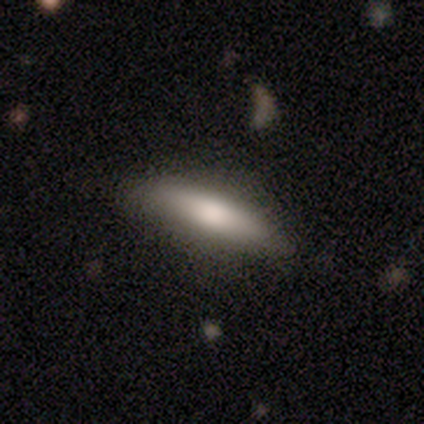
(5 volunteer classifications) This is clearly a smooth galaxy (80%). How rounded: likely cigar-shaped (75%). Merging: likely none (60%).